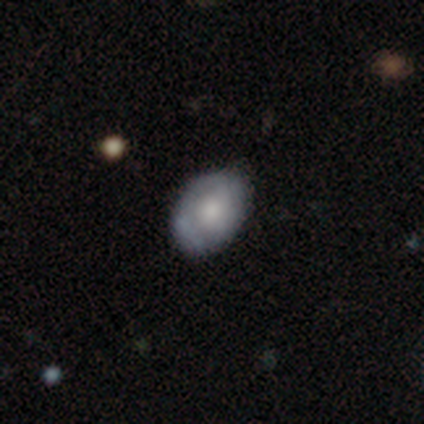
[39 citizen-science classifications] Morphology: type=smooth (51%); roundness=in between (90%); merging=none (81%).